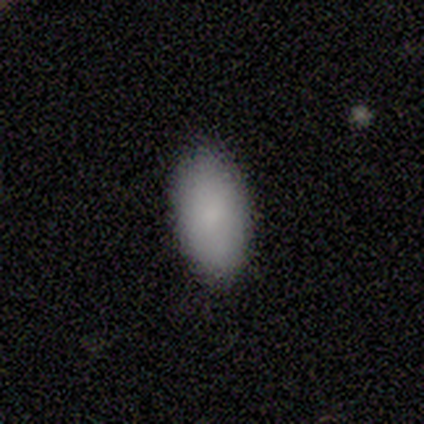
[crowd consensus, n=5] This is clearly a smooth galaxy (100%). How rounded: clearly in between (100%). Merging: clearly none (100%).